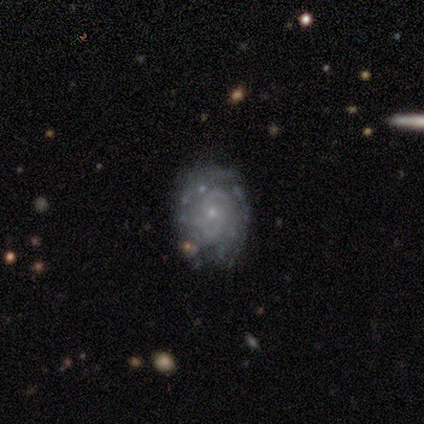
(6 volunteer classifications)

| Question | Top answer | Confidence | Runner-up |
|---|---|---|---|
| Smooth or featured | featured or disk | 67% | smooth (17%) |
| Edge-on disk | no | 100% | — |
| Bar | weak | 50% | tied: no (50%) |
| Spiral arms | yes | 100% | — |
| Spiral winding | tight | 100% | — |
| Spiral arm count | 2 | 50% | tied: can't tell (50%) |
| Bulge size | small | 100% | — |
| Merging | none | 80% | minor disturbance (20%) |